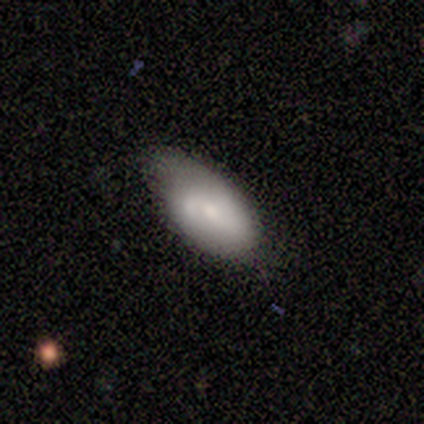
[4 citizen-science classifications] Smooth or featured? 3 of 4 (75%) said featured or disk. Edge-on disk? 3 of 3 (100%) said no. Bar? 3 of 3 (100%) said no. Spiral arms? 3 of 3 (100%) said yes. Spiral winding? 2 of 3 (67%) said tight. Spiral arm count? 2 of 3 (67%) said 2. Bulge size? 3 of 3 (100%) said small. Merging? 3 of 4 (75%) said minor disturbance.